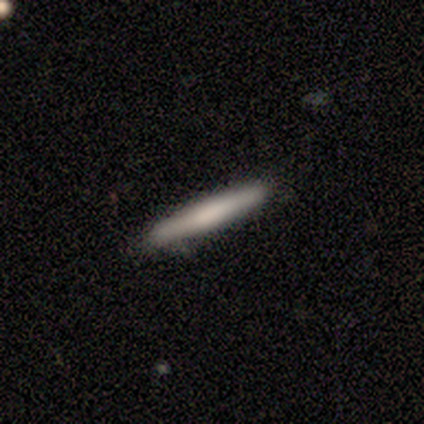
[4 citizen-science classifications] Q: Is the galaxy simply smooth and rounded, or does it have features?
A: smooth — 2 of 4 (50%, tied with featured or disk).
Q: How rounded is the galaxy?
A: cigar-shaped — 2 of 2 (100%).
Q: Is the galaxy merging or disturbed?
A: none — 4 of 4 (100%).